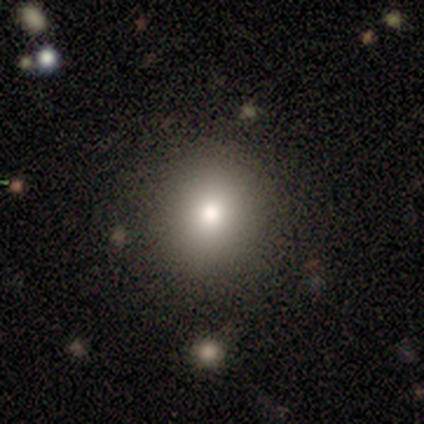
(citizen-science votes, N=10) This appears to be a smooth galaxy with no disk features (80%) that is round (75%). Merging: none (100%).